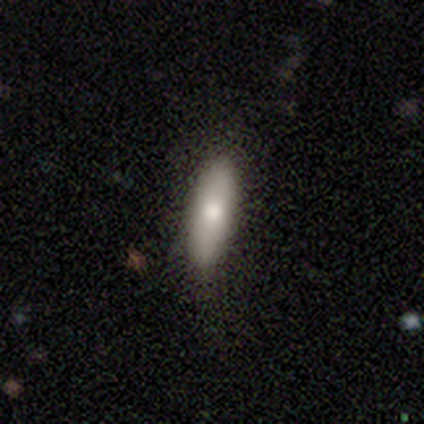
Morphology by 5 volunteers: Smooth or featured: smooth — 80% (featured or disk — 20%)
How rounded: in between — 100%
Merging: none — 80% (minor disturbance — 20%)